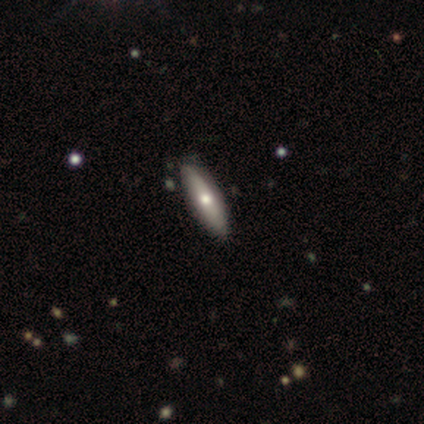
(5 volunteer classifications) Smooth or featured?
  - smooth: 60% *
  - featured or disk: 40%
  - star or artifact: 0%
How rounded?
  - in between: 67% *
  - cigar-shaped: 33%
  - round: 0%
Merging?
  - none: 80% *
  - minor disturbance: 20%
  - major disturbance: 0%
  - merger: 0%